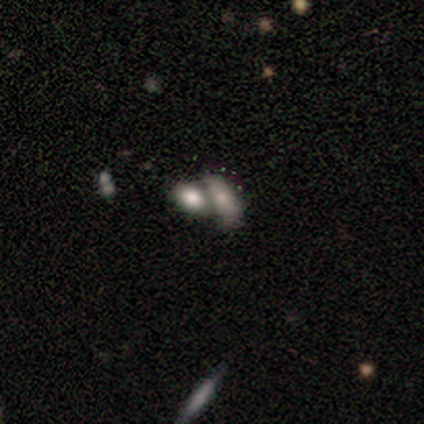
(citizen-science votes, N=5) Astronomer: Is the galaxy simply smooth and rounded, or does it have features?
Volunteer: smooth — 80%.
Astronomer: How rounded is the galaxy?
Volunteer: in between — 100%.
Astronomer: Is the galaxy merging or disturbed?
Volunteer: merger — 80%.